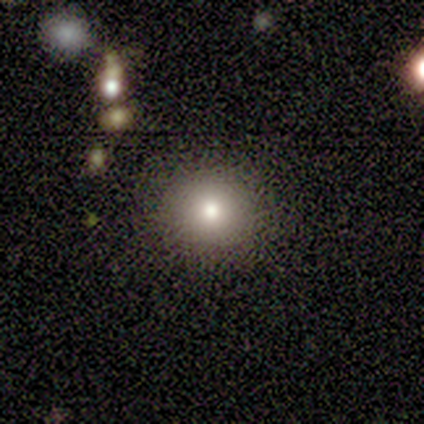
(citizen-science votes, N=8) smooth_or_featured: smooth (p=0.75) [alt: featured or disk p=0.12]
how_rounded: round (p=1.00)
merging: none (p=1.00)